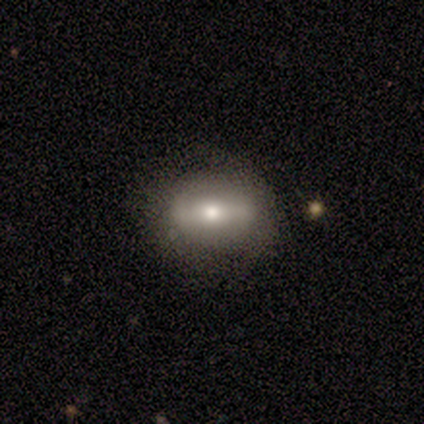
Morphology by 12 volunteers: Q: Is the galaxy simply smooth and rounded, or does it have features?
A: smooth — 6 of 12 (50%).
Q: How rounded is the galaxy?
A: in between — 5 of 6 (83%).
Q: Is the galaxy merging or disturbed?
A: none — 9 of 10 (90%).